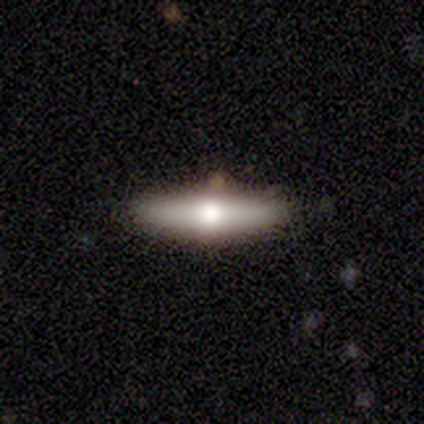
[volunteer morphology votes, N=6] featured or disk 50%, smooth 33%, star or artifact 17%. Down the decision tree: edge-on disk — yes (67%); edge-on bulge — rounded (100%); merging — none (100%).